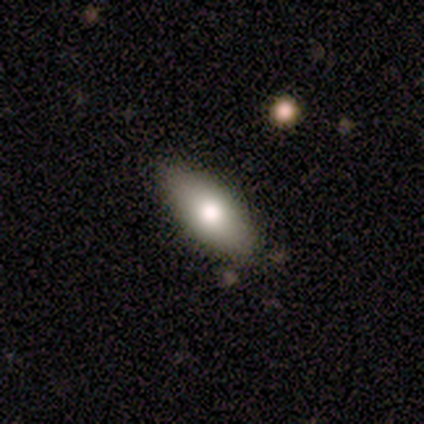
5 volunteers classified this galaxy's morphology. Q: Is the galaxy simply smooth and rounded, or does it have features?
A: smooth — 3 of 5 (60%).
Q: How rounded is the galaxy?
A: cigar-shaped — 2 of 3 (67%).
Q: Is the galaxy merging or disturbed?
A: none — 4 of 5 (80%).